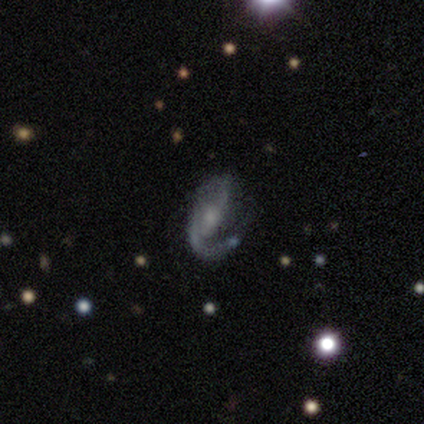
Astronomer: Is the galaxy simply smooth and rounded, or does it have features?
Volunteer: featured or disk — 80%.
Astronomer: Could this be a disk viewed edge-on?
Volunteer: no — 75%.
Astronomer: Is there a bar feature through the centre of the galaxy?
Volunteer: weak — 100%.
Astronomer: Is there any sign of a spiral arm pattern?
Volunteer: yes — 100%.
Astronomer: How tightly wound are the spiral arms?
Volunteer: tight — 33%, tied with medium and loose at 33%.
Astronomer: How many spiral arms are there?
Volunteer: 2 — 67%.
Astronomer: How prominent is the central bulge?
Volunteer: small — 100%.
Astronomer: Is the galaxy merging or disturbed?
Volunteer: minor disturbance — 60%.